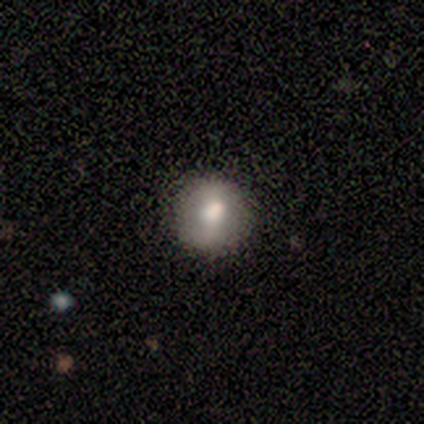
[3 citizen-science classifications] smooth_or_featured: smooth (p=1.00)
how_rounded: round (p=1.00)
merging: none (p=1.00)